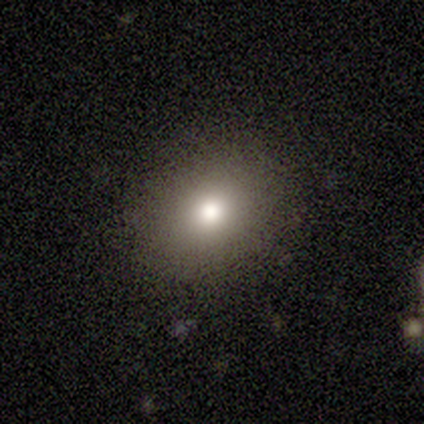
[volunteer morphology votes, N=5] Smooth or featured? 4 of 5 (80%) said smooth. How rounded? 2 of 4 (50%, tied with in between) said round. Merging? 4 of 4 (100%) said none.